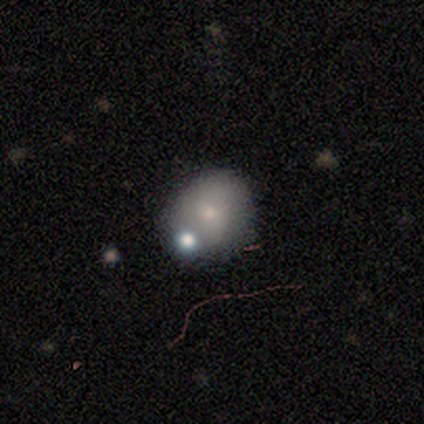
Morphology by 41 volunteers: Smooth or featured? smooth (73%)
How rounded? round (70%)
Merging? none (73%)